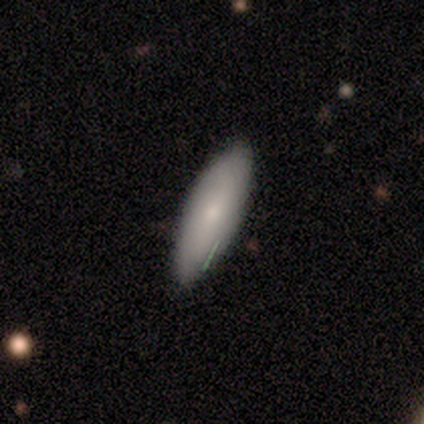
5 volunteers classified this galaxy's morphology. type=smooth (80%); roundness=in between (75%); merging=none (100%).